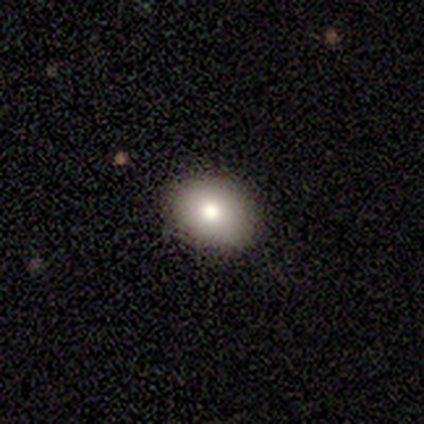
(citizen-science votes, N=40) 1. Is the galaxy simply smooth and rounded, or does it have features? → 72% smooth, 18% featured or disk, 10% star or artifact.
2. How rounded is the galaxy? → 72% in between, 28% round, 0% cigar-shaped.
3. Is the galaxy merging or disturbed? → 92% none, 8% minor disturbance, 0% major disturbance, 0% merger.